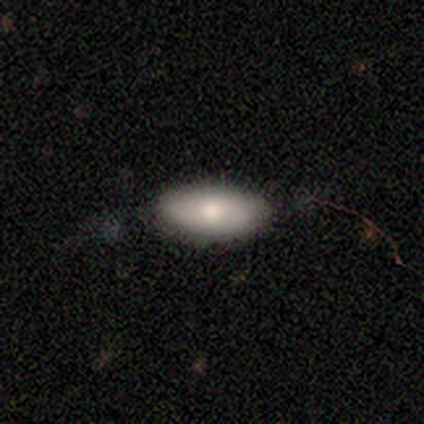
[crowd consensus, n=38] smooth-or-featured: smooth: 68% | featured or disk: 21% | star or artifact: 11%
  how-rounded: in between: 96% | round: 4% | cigar-shaped: 0%
  merging: none: 82% | minor disturbance: 12% | major disturbance: 6% | merger: 0%